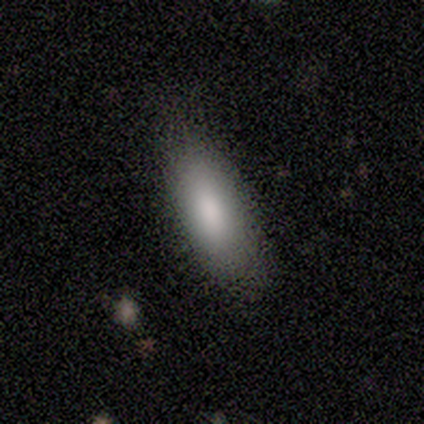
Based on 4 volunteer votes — Volunteers were most divided on "merging": none: 75%, minor disturbance: 25%, major disturbance: 0%, merger: 0%. More confident: smooth or featured — smooth (100%); how rounded — in between (100%).